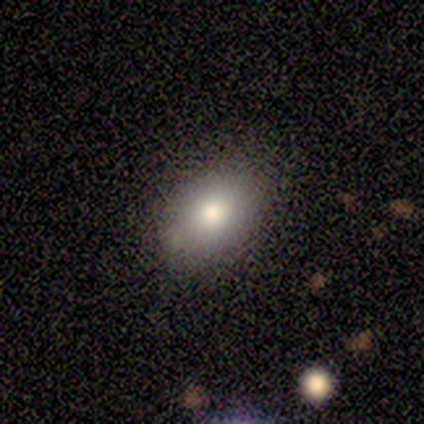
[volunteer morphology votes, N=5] A smooth galaxy with no disk features (100%) that is in between round and cigar-shaped (60%). Merging: none (100%).